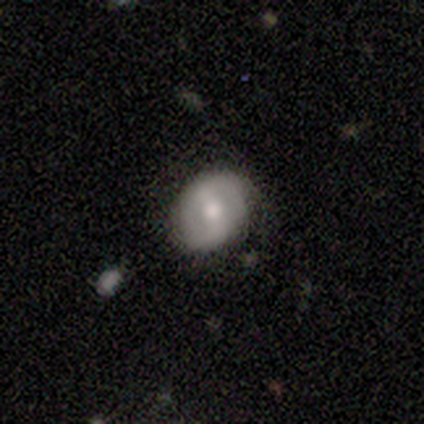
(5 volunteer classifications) This appears to be a featured or disk galaxy (80%) with a weak bar (75%), 2 (67%) tight (67%) spiral arms (75%) and a moderate central bulge (50%, tied with small). Merging: none (80%).